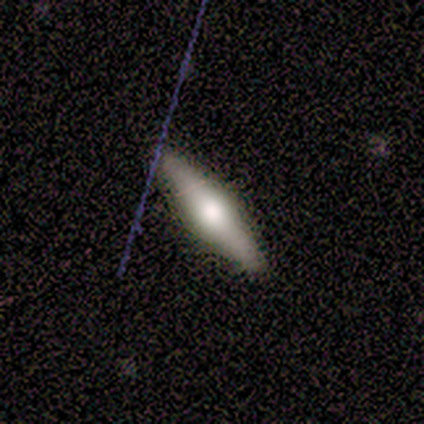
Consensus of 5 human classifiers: smooth-or-featured: smooth: 60% | featured or disk: 40% | star or artifact: 0%
  how-rounded: cigar-shaped: 100% | round: 0% | in between: 0%
  merging: none: 100% | minor disturbance: 0% | major disturbance: 0% | merger: 0%